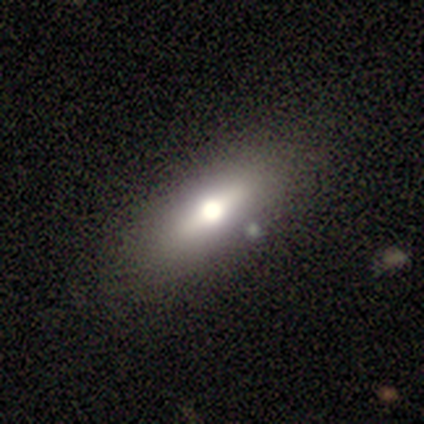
This is likely a smooth galaxy (60%). How rounded: likely in between (67%). Merging: possibly none (50%, tied with minor disturbance).